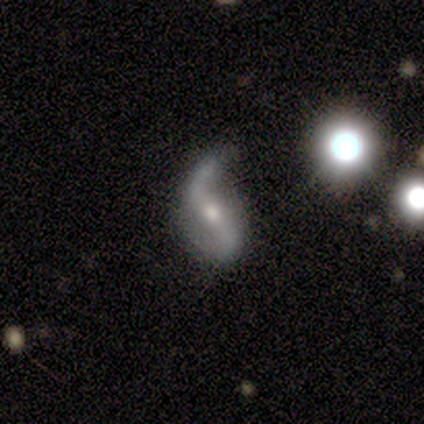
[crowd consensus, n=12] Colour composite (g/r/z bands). It shows a featured or disk galaxy (75%) with a weak bar (44%), 2 (89%) loose (89%) spiral arms (100%) and a moderate central bulge (44%, tied with small). Merging: none (42%).